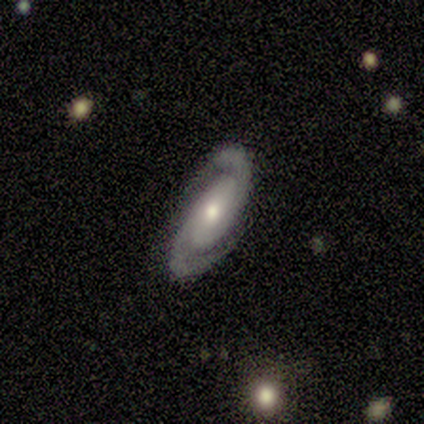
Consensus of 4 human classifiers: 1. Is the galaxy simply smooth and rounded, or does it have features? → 100% featured or disk, 0% smooth, 0% star or artifact.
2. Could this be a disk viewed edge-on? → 100% no, 0% yes.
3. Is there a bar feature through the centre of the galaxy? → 75% no, 25% strong, 0% weak.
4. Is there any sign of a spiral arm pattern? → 100% yes, 0% no.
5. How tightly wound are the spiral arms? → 100% tight, 0% medium, 0% loose.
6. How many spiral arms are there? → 100% 2, 0% 1, 0% 3, 0% 4, 0% more than 4, 0% can't tell.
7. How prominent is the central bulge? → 50% moderate (tied), 50% small (tied), 0% dominant, 0% large, 0% none.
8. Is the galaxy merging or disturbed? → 100% none, 0% minor disturbance, 0% major disturbance, 0% merger.